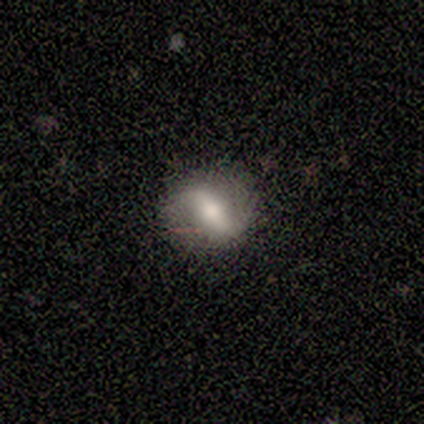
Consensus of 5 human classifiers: Volunteers were most divided on "smooth or featured": featured or disk: 60%, smooth: 40%, star or artifact: 0%. More confident: edge-on disk — no (100%); spiral winding — loose (100%); spiral arm count — 2 (100%); merging — none (80%); bar — strong (67%); spiral arms — yes (67%); bulge size — moderate (67%).